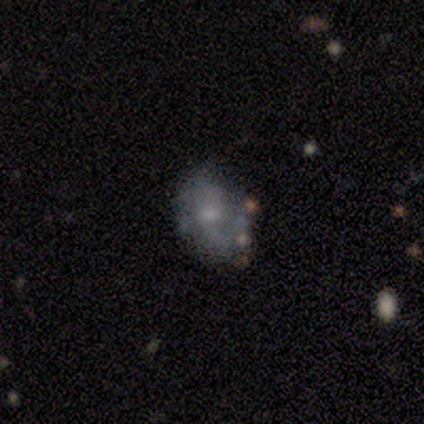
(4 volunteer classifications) A smooth galaxy with no disk features (50%) that is in between round and cigar-shaped (100%).

Vote fractions:
- Smooth or featured? smooth: 50% / featured or disk: 25% / star or artifact: 25%
- How rounded? in between: 100% / round: 0% / cigar-shaped: 0%
- Merging? none: 100% / minor disturbance: 0% / major disturbance: 0% / merger: 0%